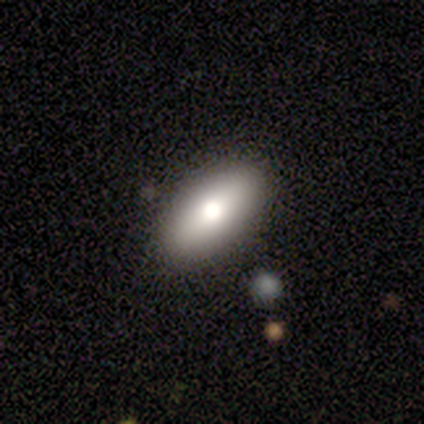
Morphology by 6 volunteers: A smooth galaxy with no disk features (83%) that is in between round and cigar-shaped (80%). Merging: none (100%).